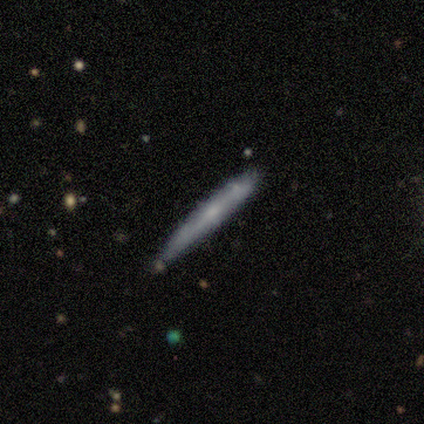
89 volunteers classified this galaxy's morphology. A smooth galaxy with no disk features (48%) that is cigar-shaped (98%).

Vote fractions:
- Smooth or featured? smooth: 48% / featured or disk: 43% / star or artifact: 9%
- How rounded? cigar-shaped: 98% / round: 2% / in between: 0%
- Merging? none: 77% / minor disturbance: 19% / merger: 5% / major disturbance: 0%